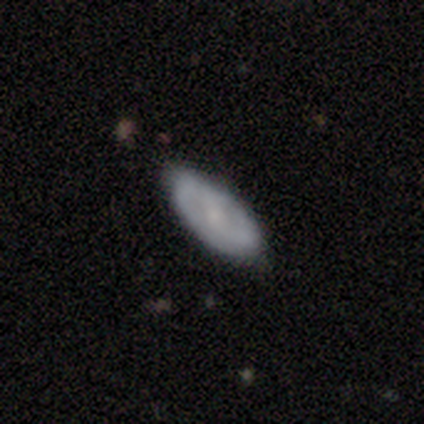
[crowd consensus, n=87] Overall: smooth (54%; featured or disk 41%). How rounded: in between (85%). Merging: none (83%).